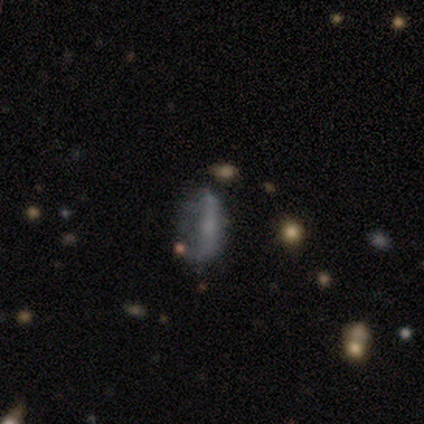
Smooth or featured? smooth (50%)
How rounded? in between (71%)
Merging? none (42%)